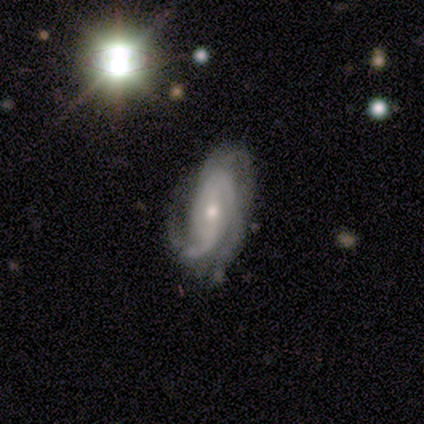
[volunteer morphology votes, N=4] A featured or disk galaxy (100%) with a strong bar (33%, tied with weak and no), 2 (33%, tied with 3 and more than 4) tight (100%) spiral arms (100%) and a moderate central bulge (67%). Merging: none (75%).